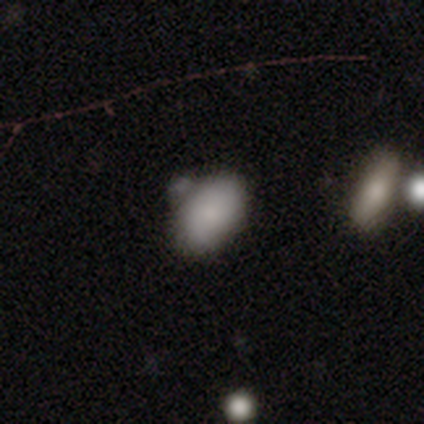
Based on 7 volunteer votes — smooth-or-featured: smooth: 71% | featured or disk: 29% | star or artifact: 0%
  how-rounded: in between: 100% | round: 0% | cigar-shaped: 0%
  merging: none: 57% | minor disturbance: 29% | merger: 14% | major disturbance: 0%